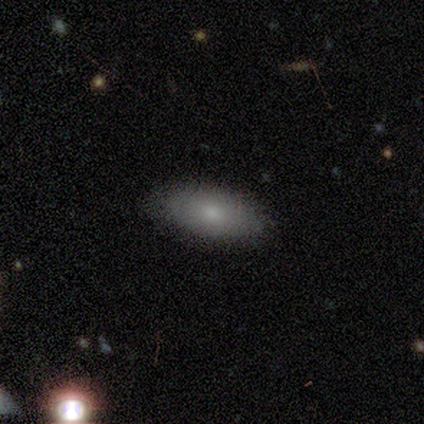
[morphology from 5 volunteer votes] A smooth galaxy with no disk features (100%) that is in between round and cigar-shaped (100%).

Vote fractions:
- Smooth or featured? smooth: 100% / featured or disk: 0% / star or artifact: 0%
- How rounded? in between: 100% / round: 0% / cigar-shaped: 0%
- Merging? none: 80% / minor disturbance: 20% / major disturbance: 0% / merger: 0%